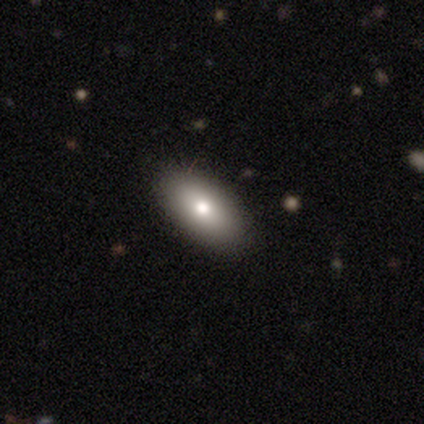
Smooth or featured?
  - featured or disk: 60% *
  - smooth: 40%
  - star or artifact: 0%
Edge-on disk?
  - no: 67% *
  - yes: 33%
Bar?
  - no: 100% *
  - strong: 0%
  - weak: 0%
Spiral arms?
  - no: 100% *
  - yes: 0%
Bulge size?
  - moderate: 100% *
  - dominant: 0%
  - large: 0%
  - small: 0%
  - none: 0%
Merging?
  - none: 80% *
  - minor disturbance: 20%
  - major disturbance: 0%
  - merger: 0%